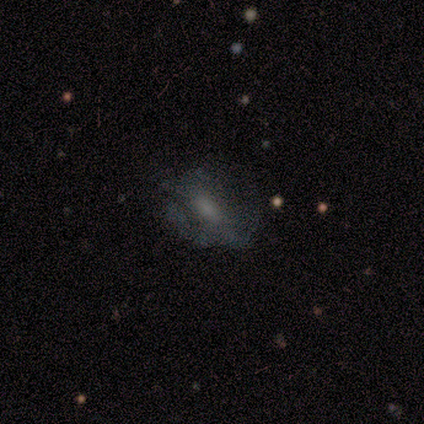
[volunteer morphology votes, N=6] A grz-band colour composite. It shows a smooth galaxy with no disk features (50%) that is in between round and cigar-shaped (100%). Merging: major disturbance (60%).